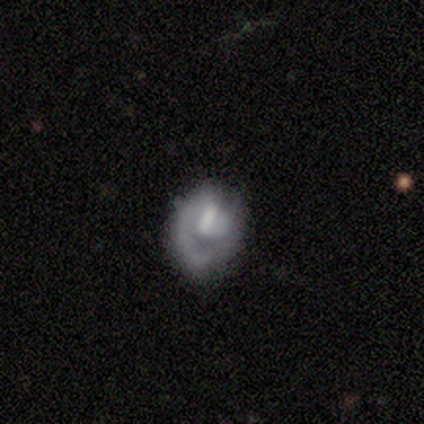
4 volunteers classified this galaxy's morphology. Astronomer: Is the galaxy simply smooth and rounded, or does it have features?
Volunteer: featured or disk — 75%.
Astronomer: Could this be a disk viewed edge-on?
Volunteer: no — 100%.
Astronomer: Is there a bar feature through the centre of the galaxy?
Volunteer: weak — 67%.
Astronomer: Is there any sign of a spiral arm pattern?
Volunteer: yes — 67%.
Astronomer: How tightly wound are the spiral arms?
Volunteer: tight — 50%, tied with medium at 50%.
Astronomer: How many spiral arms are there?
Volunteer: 1 — 50%, tied with can't tell at 50%.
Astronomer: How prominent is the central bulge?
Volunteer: large — 33%, tied with moderate and none at 33%.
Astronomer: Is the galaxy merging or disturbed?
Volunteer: minor disturbance — 50%.